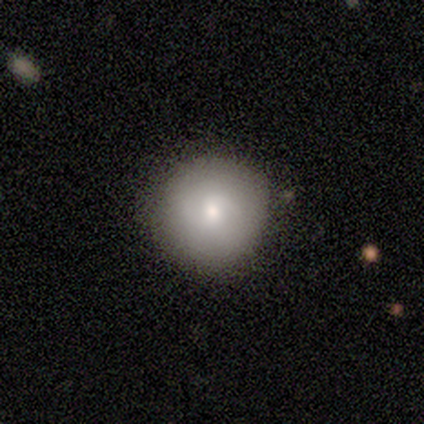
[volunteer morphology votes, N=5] Q: Smooth or featured?
A: smooth (100%)
Q: How rounded?
A: round (100%)
Q: Merging?
A: none (80%); runner-up: minor disturbance (20%)